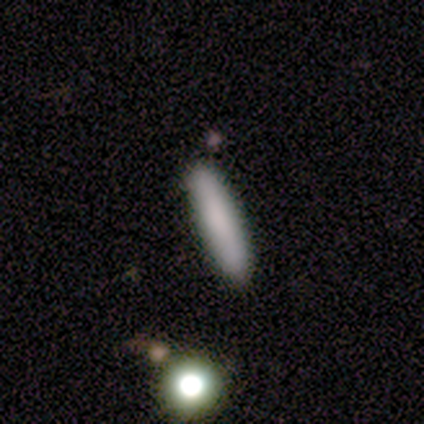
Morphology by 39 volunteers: type=smooth (87%); roundness=cigar-shaped (85%); merging=none (47%).